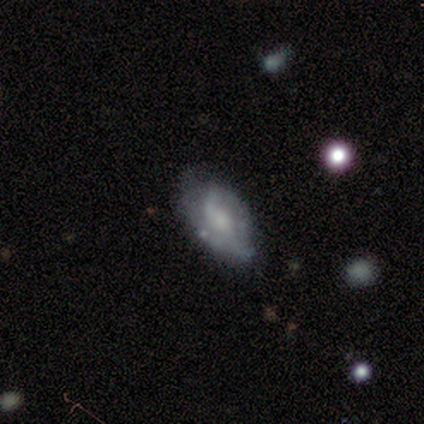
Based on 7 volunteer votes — Overall: featured or disk (71%). Edge-on disk: no (100%). Bar: weak (40%, tied with no). Spiral arms: yes (80%). Spiral arm count: can't tell (75%). Spiral winding: tight (50%; medium 25%). Bulge size: moderate (60%; small 40%). Merging: none (71%).